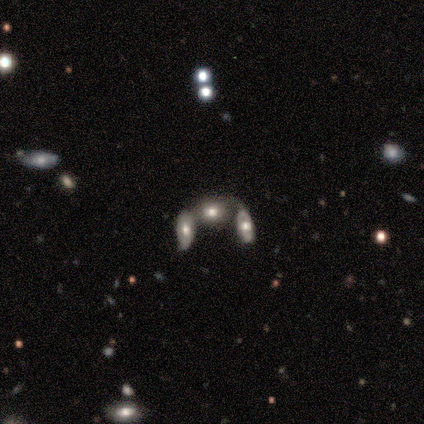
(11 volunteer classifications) A smooth galaxy with no disk features (55%) that is in between round and cigar-shaped (83%). Merging: merger (75%).